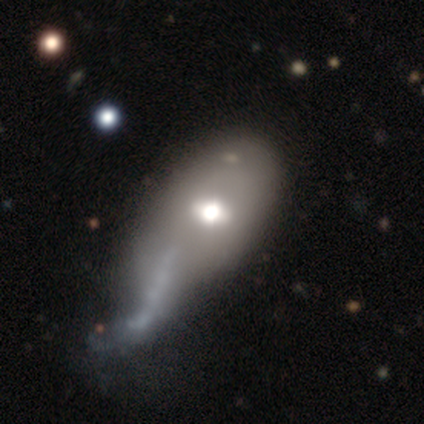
Smooth or featured: smooth — 40% (tied with featured or disk — 40%)
How rounded: round — 50% (tied with cigar-shaped — 50%)
Merging: none — 25% (tied with minor disturbance — 25%; major disturbance — 25%; merger — 25%)